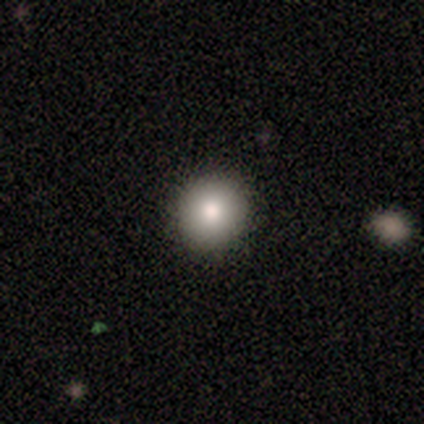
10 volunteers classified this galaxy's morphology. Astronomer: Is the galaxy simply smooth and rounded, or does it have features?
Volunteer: smooth — 80%.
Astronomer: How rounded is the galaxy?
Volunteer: round — 100%.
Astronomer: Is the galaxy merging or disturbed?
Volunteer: none — 100%.